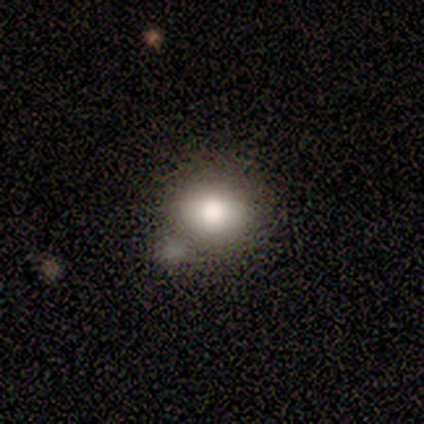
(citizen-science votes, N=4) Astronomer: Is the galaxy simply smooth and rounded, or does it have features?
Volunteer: smooth — 100%.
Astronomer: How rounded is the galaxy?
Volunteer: round — 75%.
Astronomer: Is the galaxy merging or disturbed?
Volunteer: merger — 50%.